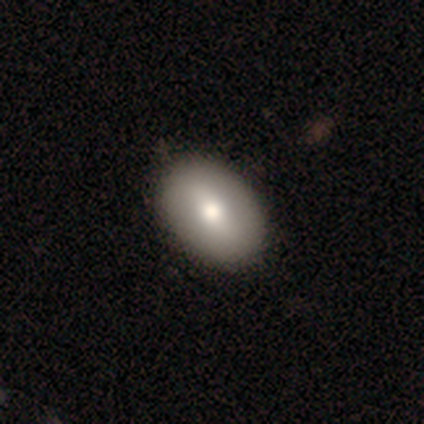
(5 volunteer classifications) A smooth galaxy with no disk features (60%) that is in between round and cigar-shaped (100%). Merging: none (100%).